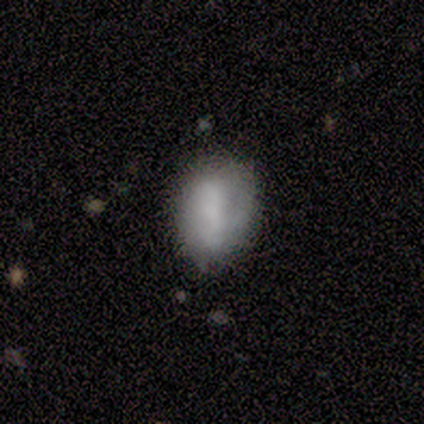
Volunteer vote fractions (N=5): Overall: smooth (100%). How rounded: in between (80%). Merging: none (40%; minor disturbance 20%).